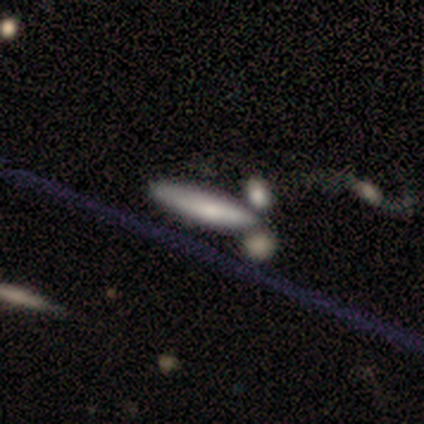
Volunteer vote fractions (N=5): A smooth galaxy with no disk features (80%) that is cigar-shaped (100%). Merging: none (100%).